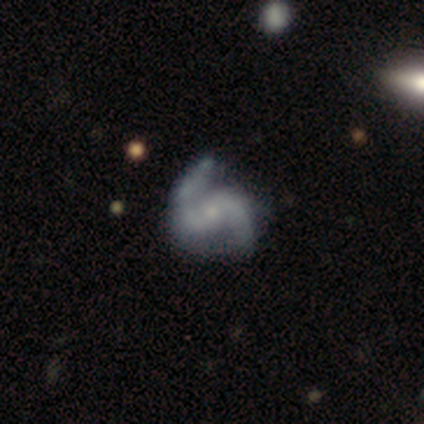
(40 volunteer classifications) smooth_or_featured: featured or disk (p=0.95) [alt: smooth p=0.03]
disk_edge_on: no (p=1.00)
bar: no (p=0.50) [alt: weak p=0.32]
has_spiral_arms: yes (p=0.97) [alt: no p=0.03]
spiral_winding: medium (p=0.54) [alt: loose p=0.32]
spiral_arm_count: 2 (p=0.89) [alt: can't tell p=0.05]
bulge_size: small (p=0.74) [alt: moderate p=0.13]
merging: none (p=0.44) [alt: minor disturbance p=0.15]